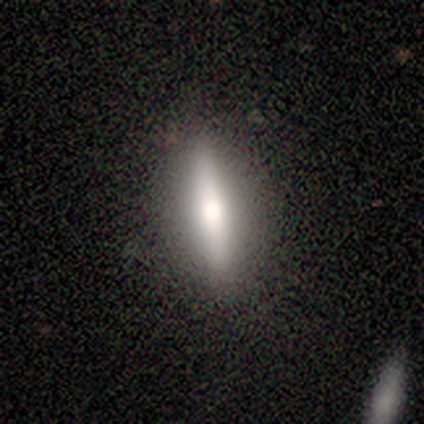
Q: Smooth or featured?
A: smooth (60%); runner-up: featured or disk (40%)
Q: How rounded?
A: in between (67%); runner-up: cigar-shaped (33%)
Q: Merging?
A: none (80%); runner-up: minor disturbance (20%)